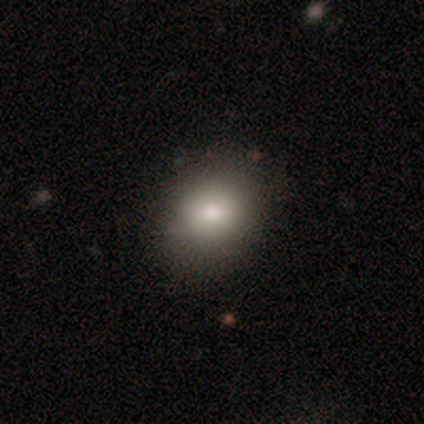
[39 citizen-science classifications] Overall: smooth (79%). How rounded: round (65%; in between 35%). Merging: none (86%).